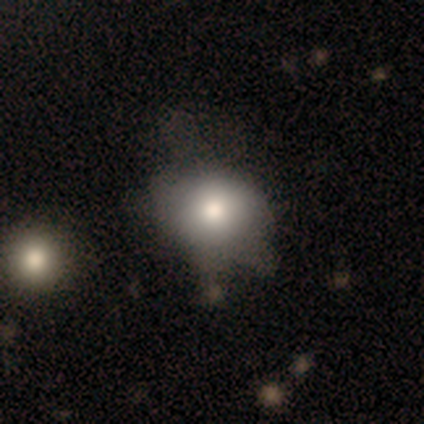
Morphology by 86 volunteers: smooth_or_featured: smooth (p=0.67) [alt: featured or disk p=0.17]
how_rounded: round (p=0.66) [alt: in between p=0.34]
merging: none (p=0.47) [alt: minor disturbance p=0.30]